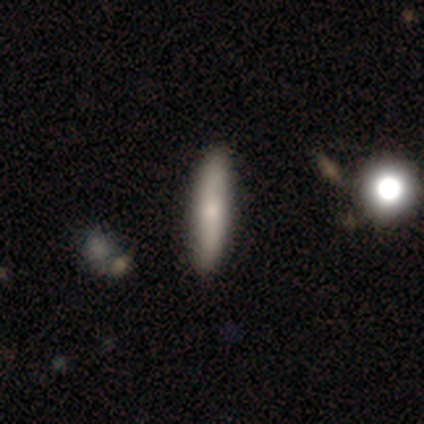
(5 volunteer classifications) This is likely a smooth galaxy (60%). How rounded: clearly cigar-shaped (100%). Merging: clearly none (100%).